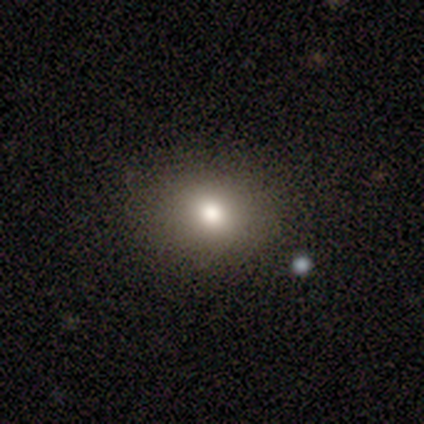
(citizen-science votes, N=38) Volunteers were most divided on "how rounded": round: 66%, in between: 34%, cigar-shaped: 0%. More confident: merging — none (100%); smooth or featured — smooth (84%).